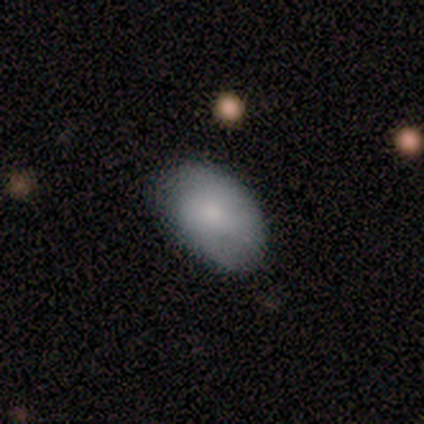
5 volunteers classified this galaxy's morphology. A smooth galaxy with no disk features (80%) that is in between round and cigar-shaped (100%).

Vote fractions:
- Smooth or featured? smooth: 80% / featured or disk: 20% / star or artifact: 0%
- How rounded? in between: 100% / round: 0% / cigar-shaped: 0%
- Merging? none: 100% / minor disturbance: 0% / major disturbance: 0% / merger: 0%